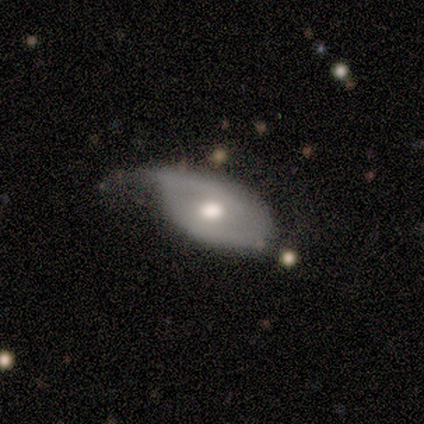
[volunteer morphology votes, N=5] featured or disk 60%, smooth 40%, star or artifact 0%. Down the decision tree: edge-on disk — no (100%); bar — weak (67%); spiral arms — no (67%); bulge size — moderate (100%); merging — minor disturbance (100%).